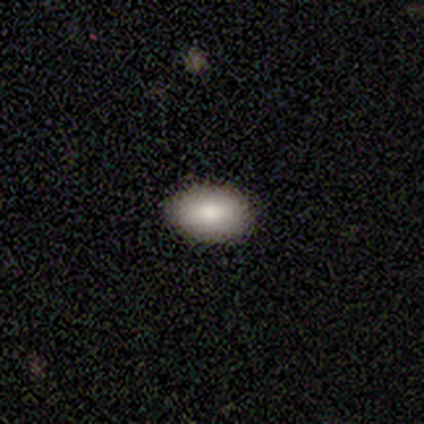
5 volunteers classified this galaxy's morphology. smooth_or_featured: smooth (p=1.00)
how_rounded: in between (p=1.00)
merging: none (p=0.80) [alt: major disturbance p=0.20]